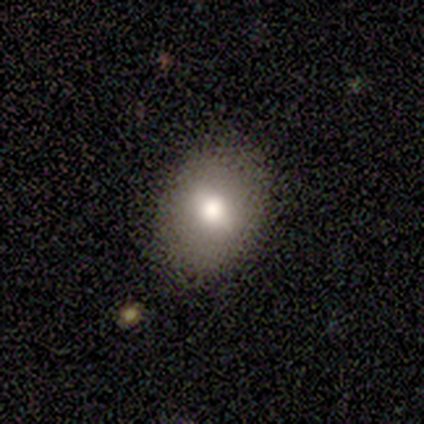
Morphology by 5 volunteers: smooth_or_featured: smooth (p=0.80) [alt: featured or disk p=0.20]
how_rounded: in between (p=0.75) [alt: round p=0.25]
merging: none (p=0.80) [alt: minor disturbance p=0.20]